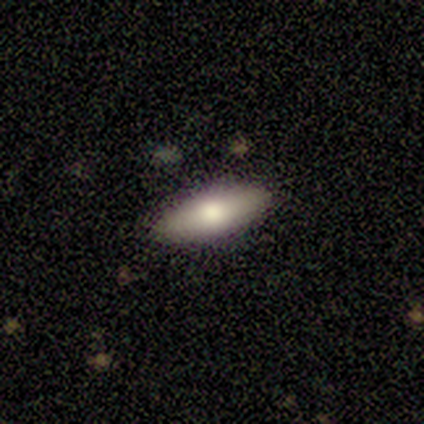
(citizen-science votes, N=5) featured or disk 60%, smooth 40%, star or artifact 0%. Down the decision tree: edge-on disk — no (67%); bar — weak (50%, tied with no); spiral arms — no (100%); bulge size — large (50%, tied with moderate); merging — none (80%).